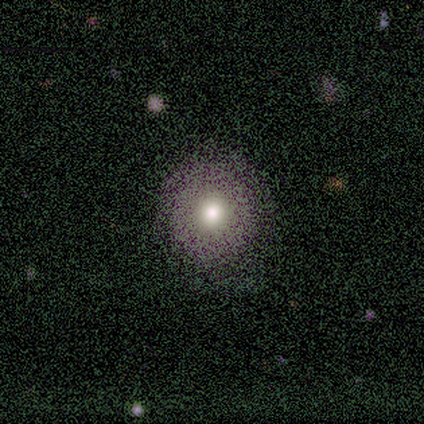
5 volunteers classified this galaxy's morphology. Smooth or featured? smooth (80%)
How rounded? round (100%)
Merging? none (100%)